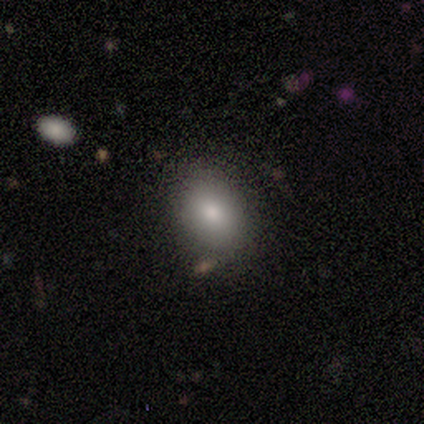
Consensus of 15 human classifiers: This appears to be a smooth galaxy with no disk features (80%) that is in between round and cigar-shaped (75%). Merging: none (92%).